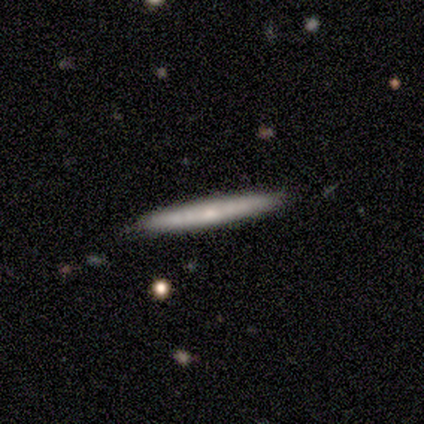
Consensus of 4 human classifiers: smooth-or-featured: smooth: 50% (tied) | featured or disk: 50% (tied) | star or artifact: 0%
  how-rounded: in between: 50% (tied) | cigar-shaped: 50% (tied) | round: 0%
  merging: none: 100% | minor disturbance: 0% | major disturbance: 0% | merger: 0%